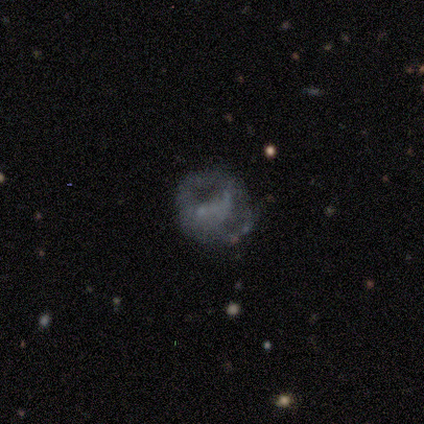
Q: Smooth or featured?
A: featured or disk (60%); runner-up: smooth (40%)
Q: Edge-on disk?
A: no (100%)
Q: Bar?
A: no (67%); runner-up: strong (33%)
Q: Spiral arms?
A: no (67%); runner-up: yes (33%)
Q: Bulge size?
A: none (67%); runner-up: small (33%)
Q: Merging?
A: major disturbance (80%); runner-up: none (20%)